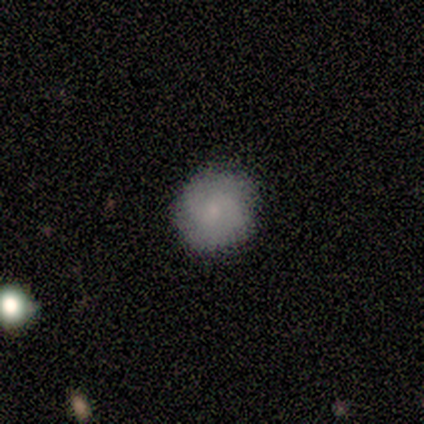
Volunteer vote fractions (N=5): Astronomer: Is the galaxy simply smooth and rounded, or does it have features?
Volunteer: smooth — 40%, tied with featured or disk at 40%.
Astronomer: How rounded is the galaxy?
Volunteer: round — 100%.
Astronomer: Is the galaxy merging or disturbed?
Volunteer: none — 50%, tied with minor disturbance at 50%.